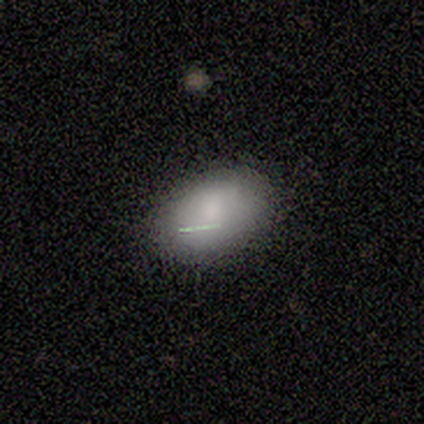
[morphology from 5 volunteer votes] smooth_or_featured: smooth (p=1.00)
how_rounded: in between (p=1.00)
merging: none (p=0.80) [alt: minor disturbance p=0.20]